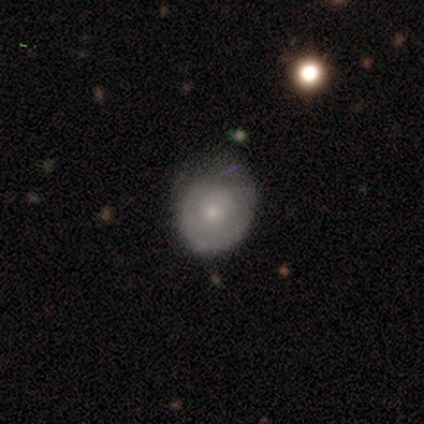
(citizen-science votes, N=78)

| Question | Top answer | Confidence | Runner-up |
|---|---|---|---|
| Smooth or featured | smooth | 51% | featured or disk (44%) |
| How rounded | round | 57% | in between (42%) |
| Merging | minor disturbance | 24% | none (22%) |